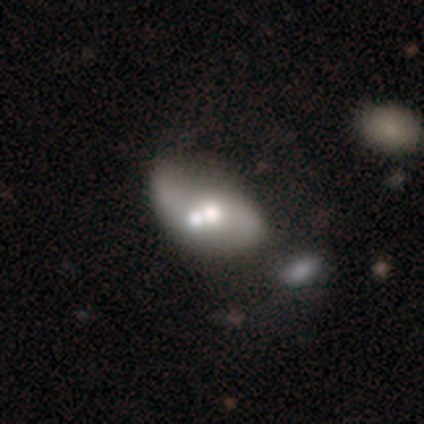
smooth-or-featured: featured or disk: 66% | smooth: 21% | star or artifact: 13%
  disk-edge-on: no: 96% | yes: 4%
    bar: no: 92% | weak: 8% | strong: 0%
    has-spiral-arms: yes: 54% | no: 46%
      spiral-winding: loose: 92% | medium: 8% | tight: 0%
      spiral-arm-count: 2: 100% | 1: 0% | 3: 0% | 4: 0% | more than 4: 0% | can't tell: 0%
    bulge-size: moderate: 71% | small: 17% | large: 12% | dominant: 0% | none: 0%
  merging: merger: 55% | none: 21% | minor disturbance: 15% | major disturbance: 9%